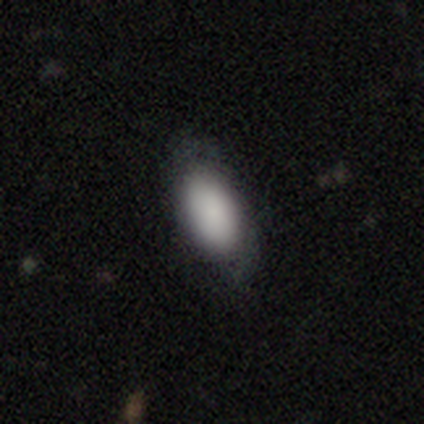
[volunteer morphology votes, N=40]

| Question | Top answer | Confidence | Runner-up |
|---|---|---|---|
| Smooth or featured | smooth | 72% | featured or disk (20%) |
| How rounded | in between | 97% | cigar-shaped (3%) |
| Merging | none | 46% | minor disturbance (35%) |